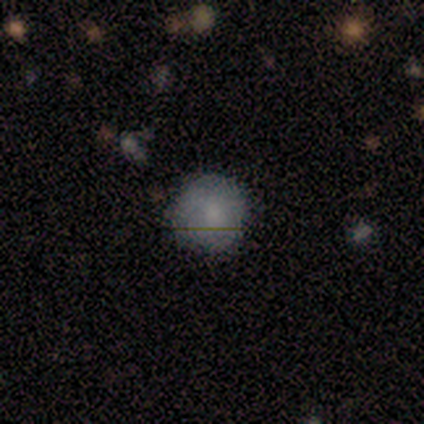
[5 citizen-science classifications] smooth_or_featured: smooth (p=0.80) [alt: star or artifact p=0.20]
how_rounded: round (p=1.00)
merging: none (p=1.00)